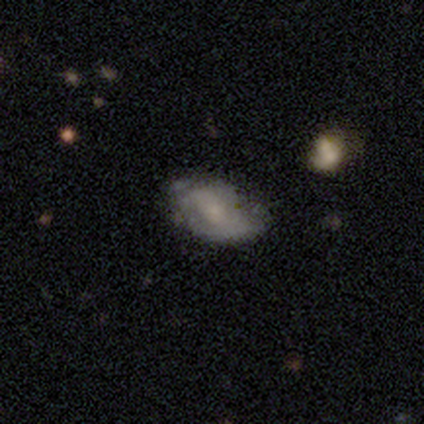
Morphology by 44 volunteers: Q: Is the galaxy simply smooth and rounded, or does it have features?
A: featured or disk — 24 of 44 (55%).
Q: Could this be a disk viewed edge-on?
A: no — 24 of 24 (100%).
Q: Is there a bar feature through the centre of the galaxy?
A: no — 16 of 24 (67%).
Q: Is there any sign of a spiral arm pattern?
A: no — 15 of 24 (62%).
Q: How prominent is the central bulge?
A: none — 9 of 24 (38%).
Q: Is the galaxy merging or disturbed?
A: minor disturbance — 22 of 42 (52%).